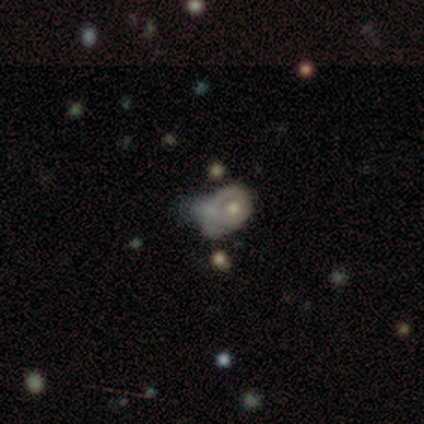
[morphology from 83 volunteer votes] This appears to be a featured or disk galaxy (65%) with no bar (96%), no spiral arms (77%) and a moderate central bulge (60%). Merging: major disturbance (35%).